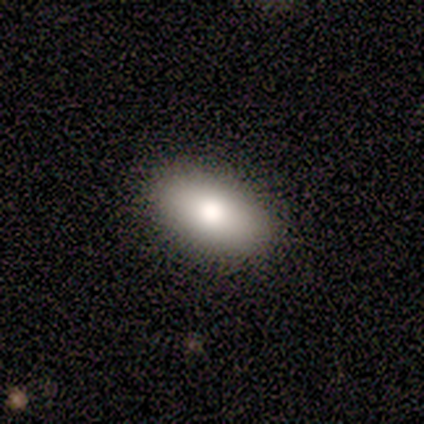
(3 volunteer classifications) smooth_or_featured: smooth (p=0.67) [alt: star or artifact p=0.33]
how_rounded: in between (p=1.00)
merging: none (p=1.00)